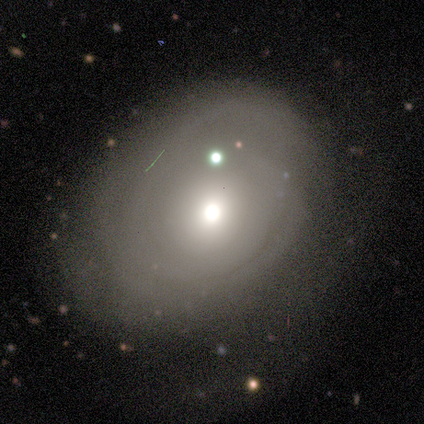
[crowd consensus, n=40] A smooth galaxy with no disk features (60%) that is in between round and cigar-shaped (67%). Merging: none (46%).